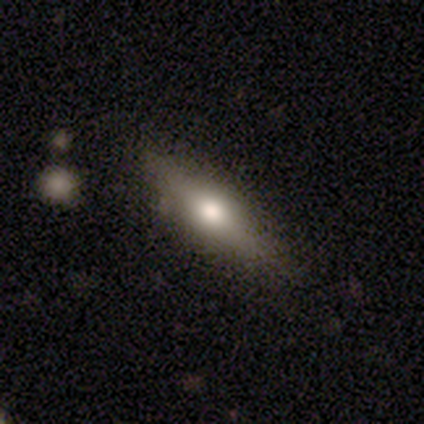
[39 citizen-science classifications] Morphology: type=smooth (51%); roundness=in between (55%); merging=none (53%).